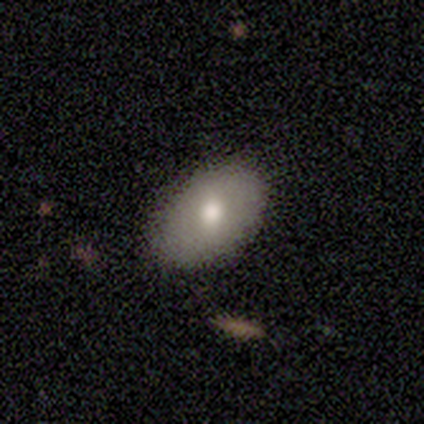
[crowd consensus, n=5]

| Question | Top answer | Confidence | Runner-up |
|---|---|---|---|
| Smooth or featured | smooth | 80% | featured or disk (20%) |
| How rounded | in between | 75% | round (25%) |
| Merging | none | 100% | — |